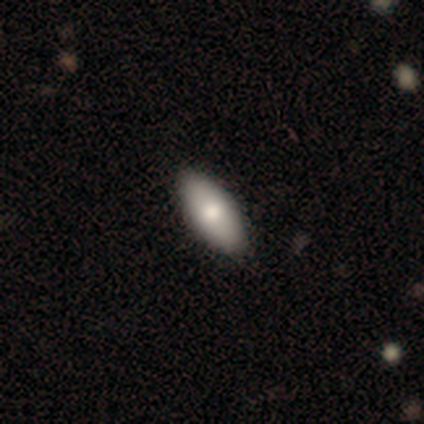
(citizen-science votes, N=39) smooth 85%, featured or disk 8%, star or artifact 8%. Down the decision tree: how rounded — in between (76%); merging — none (94%).